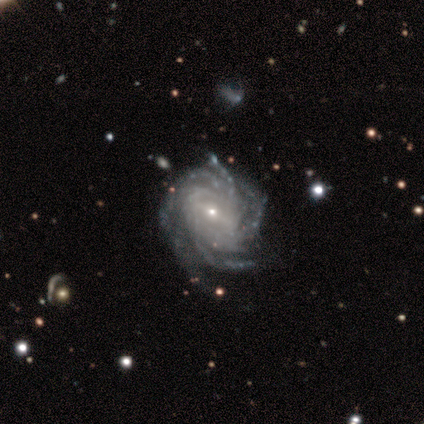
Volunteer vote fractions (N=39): Volunteers were most divided on "spiral arm count": more than 4: 42%, can't tell: 25%, 4: 22%, 2: 6%, 3: 6%, 1: 0%. More confident: spiral arms — yes (100%); edge-on disk — no (97%); smooth or featured — featured or disk (95%); spiral winding — tight (72%); bulge size — small (72%); merging — none (62%); bar — weak (53%).